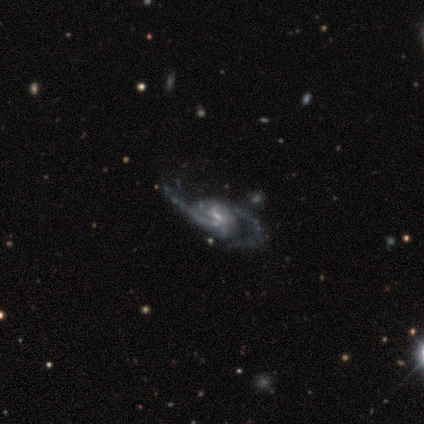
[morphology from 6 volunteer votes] Overall: featured or disk (83%). Edge-on disk: no (80%). Bar: weak (75%). Spiral arms: yes (100%). Spiral arm count: 2 (100%). Spiral winding: medium (50%; tight 25%). Bulge size: small (75%). Merging: none (80%).